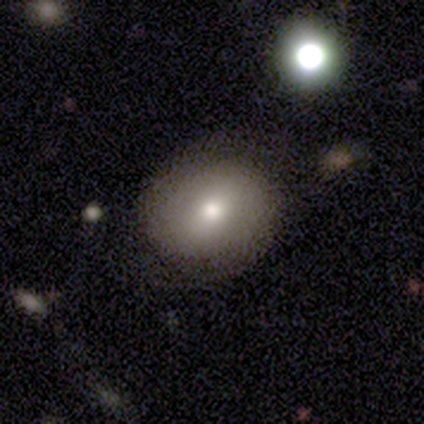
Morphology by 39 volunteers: A smooth galaxy with no disk features (67%) that is round (81%).

Vote fractions:
- Smooth or featured? smooth: 67% / featured or disk: 23% / star or artifact: 10%
- How rounded? round: 81% / in between: 19% / cigar-shaped: 0%
- Merging? none: 97% / minor disturbance: 3% / major disturbance: 0% / merger: 0%